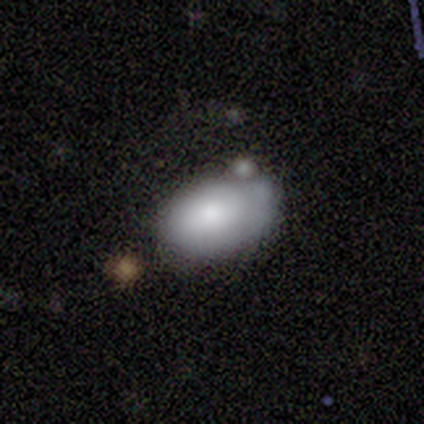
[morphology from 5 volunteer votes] Volunteers were most divided on "merging": minor disturbance: 60%, none: 40%, major disturbance: 0%, merger: 0%. More confident: how rounded — in between (100%); smooth or featured — smooth (80%).